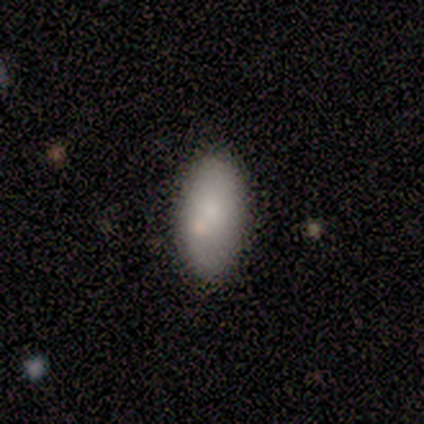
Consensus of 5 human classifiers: smooth_or_featured: smooth (p=1.00)
how_rounded: in between (p=1.00)
merging: none (p=0.80) [alt: merger p=0.20]